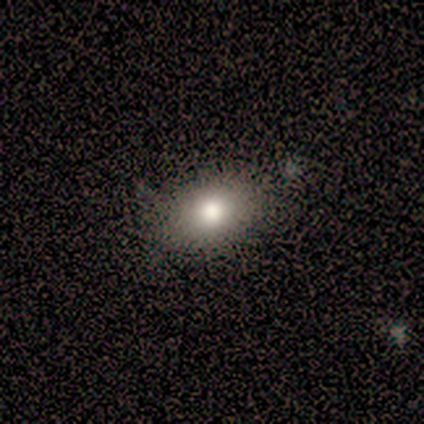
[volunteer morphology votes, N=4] A smooth galaxy with no disk features (100%) that is in between round and cigar-shaped (100%). Merging: none (75%).